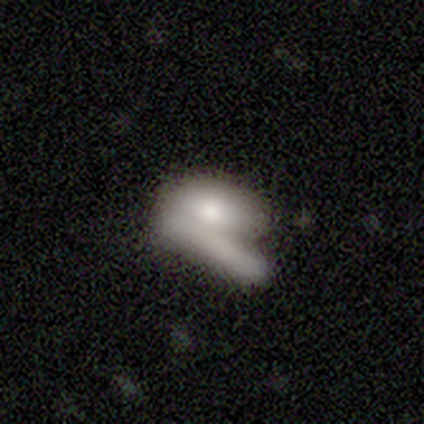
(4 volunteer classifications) Q: Smooth or featured?
A: smooth (50%); tied with: featured or disk (50%)
Q: How rounded?
A: in between (50%); tied with: cigar-shaped (50%)
Q: Merging?
A: merger (50%); runner-up: none (25%)